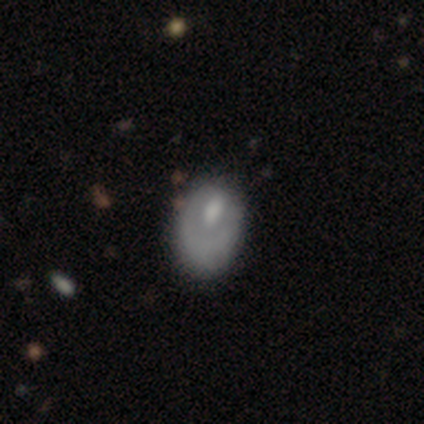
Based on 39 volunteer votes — Q: Smooth or featured?
A: smooth (51%); runner-up: featured or disk (44%)
Q: How rounded?
A: in between (90%); runner-up: round (10%)
Q: Merging?
A: minor disturbance (27%); tied with: major disturbance (27%)